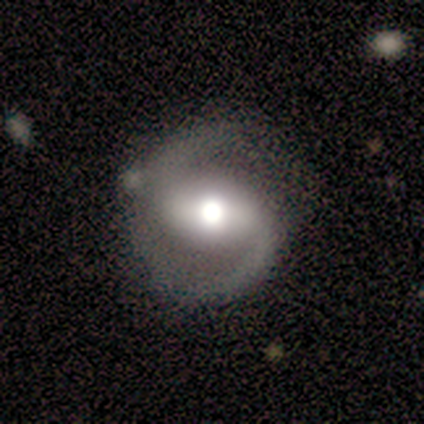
smooth_or_featured: featured or disk (p=0.80) [alt: smooth p=0.20]
disk_edge_on: no (p=1.00)
bar: strong (p=0.50) [alt: weak p=0.25]
has_spiral_arms: yes (p=1.00)
spiral_winding: medium (p=0.50) [alt: tight p=0.25]
spiral_arm_count: 2 (p=1.00)
bulge_size: moderate (p=0.75) [alt: large p=0.25]
merging: none (p=0.60) [alt: minor disturbance p=0.20]